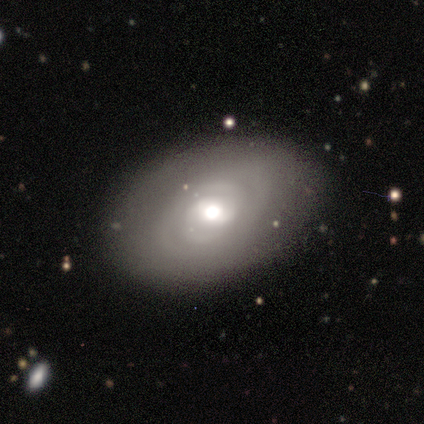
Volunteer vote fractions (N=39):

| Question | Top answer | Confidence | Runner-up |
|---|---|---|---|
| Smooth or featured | smooth | 51% | featured or disk (41%) |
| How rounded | in between | 80% | round (20%) |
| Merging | none | 75% | major disturbance (17%) |